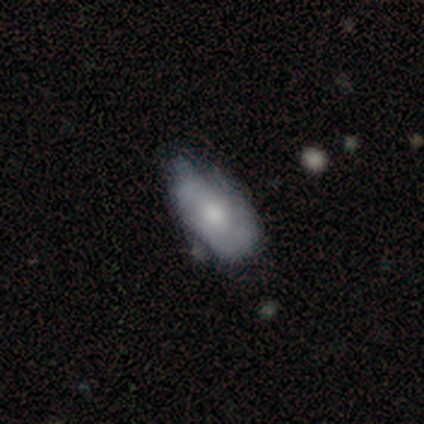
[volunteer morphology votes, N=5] A featured or disk galaxy (40%, tied with star or artifact) with a weak bar (50%, tied with no), no spiral arms (100%) and a large central bulge (100%).

Vote fractions:
- Smooth or featured? featured or disk: 40% (tied) / star or artifact: 40% (tied) / smooth: 20%
- Edge-on disk? no: 100% / yes: 0%
- Bar? weak: 50% (tied) / no: 50% (tied) / strong: 0%
- Spiral arms? no: 100% / yes: 0%
- Bulge size? large: 100% / dominant: 0% / moderate: 0% / small: 0% / none: 0%
- Merging? minor disturbance: 100% / none: 0% / major disturbance: 0% / merger: 0%